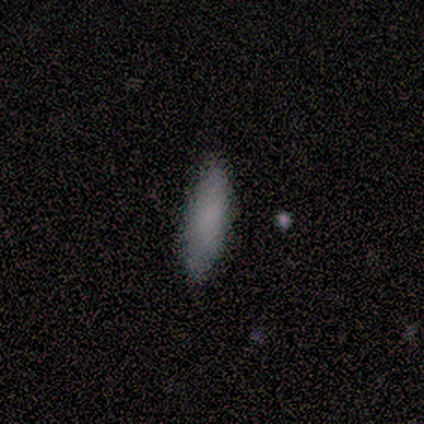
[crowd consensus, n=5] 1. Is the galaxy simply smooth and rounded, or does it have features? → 60% smooth, 40% featured or disk, 0% star or artifact.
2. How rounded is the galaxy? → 67% cigar-shaped, 33% in between, 0% round.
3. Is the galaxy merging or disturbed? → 40% none (tied), 40% minor disturbance (tied), 20% merger, 0% major disturbance.